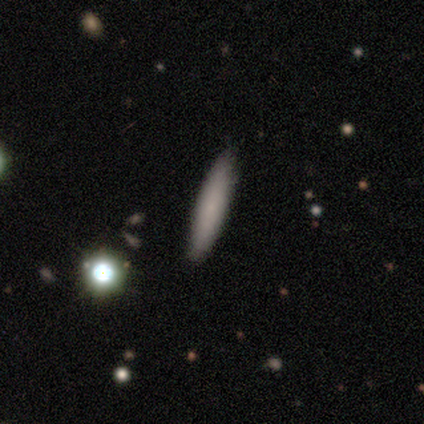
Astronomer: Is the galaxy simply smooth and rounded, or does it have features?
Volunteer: smooth — 77%.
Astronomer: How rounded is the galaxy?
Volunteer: cigar-shaped — 93%.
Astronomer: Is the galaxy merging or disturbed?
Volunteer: none — 68%.